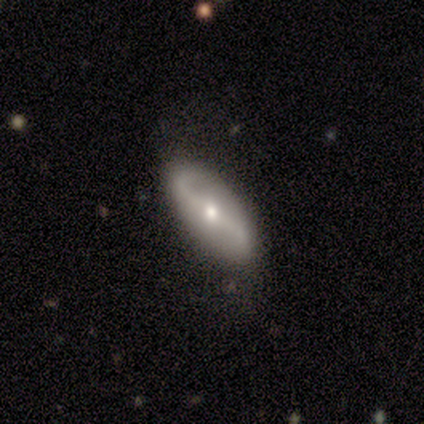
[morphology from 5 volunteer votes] type=featured or disk (60%); edge-on=no (100%); bar=strong (33%, tied with weak and no); spiral arms=yes (100%); winding=loose (67%); arm count=2 (100%); bulge=moderate (100%); merging=none (60%).